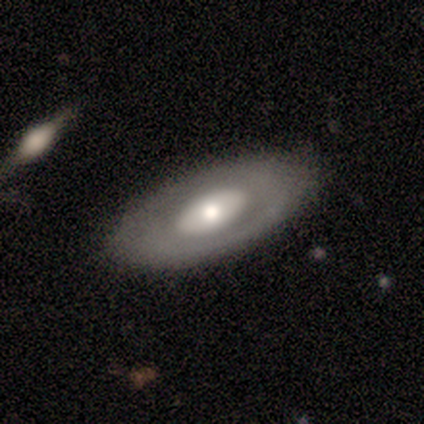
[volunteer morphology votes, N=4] Smooth or featured? 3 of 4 (75%) said smooth. How rounded? 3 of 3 (100%) said in between. Merging? 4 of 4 (100%) said none.